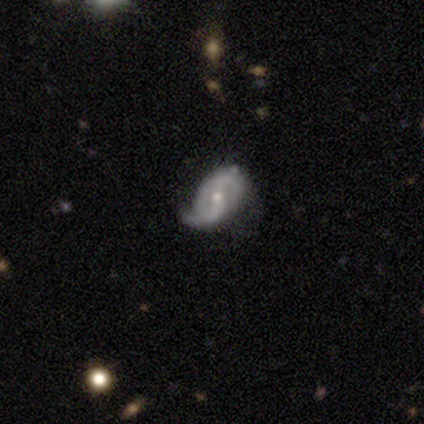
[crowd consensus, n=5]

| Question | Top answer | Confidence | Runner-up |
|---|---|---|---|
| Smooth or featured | featured or disk | 80% | smooth (20%) |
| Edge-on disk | no | 100% | — |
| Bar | weak | 50% | strong (25%) |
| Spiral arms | yes | 100% | — |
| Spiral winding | loose | 100% | — |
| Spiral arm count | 2 | 75% | 1 (25%) |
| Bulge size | moderate | 75% | small (25%) |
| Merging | minor disturbance | 40% | tied: major disturbance (40%) |